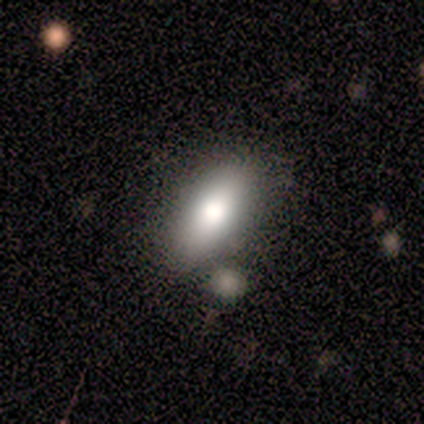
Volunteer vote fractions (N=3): This is likely a smooth galaxy (67%). How rounded: clearly in between (100%). Merging: likely none (67%).